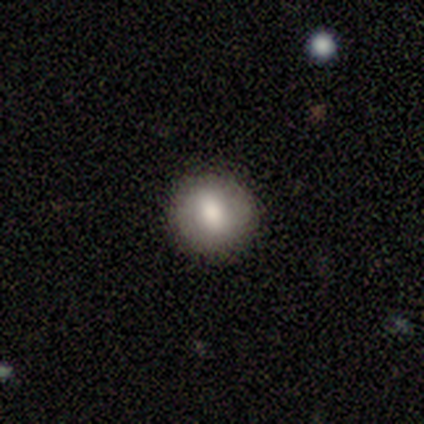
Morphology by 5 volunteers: Smooth or featured? 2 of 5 (40%, tied with star or artifact) said smooth. How rounded? 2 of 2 (100%) said round. Merging? 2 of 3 (67%) said none.